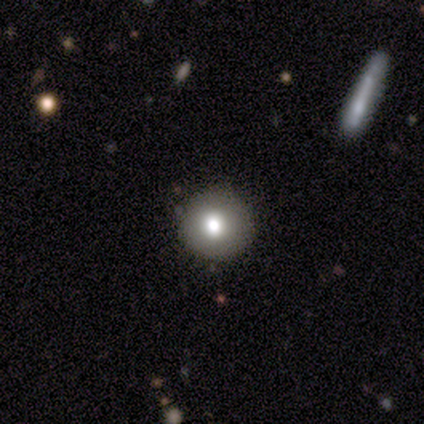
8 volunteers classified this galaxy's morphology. A smooth galaxy with no disk features (75%) that is round (100%).

Vote fractions:
- Smooth or featured? smooth: 75% / star or artifact: 25% / featured or disk: 0%
- How rounded? round: 100% / in between: 0% / cigar-shaped: 0%
- Merging? none: 100% / minor disturbance: 0% / major disturbance: 0% / merger: 0%